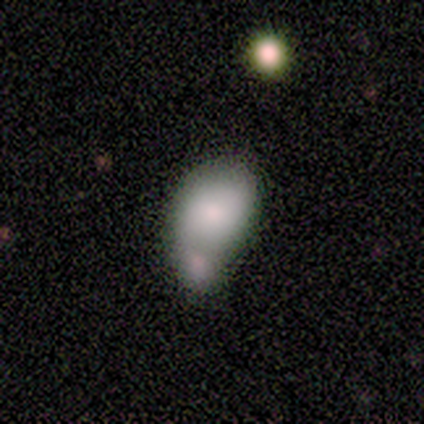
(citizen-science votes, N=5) Overall: smooth (60%; featured or disk 20%). How rounded: in between (100%). Merging: merger (50%; none 25%).